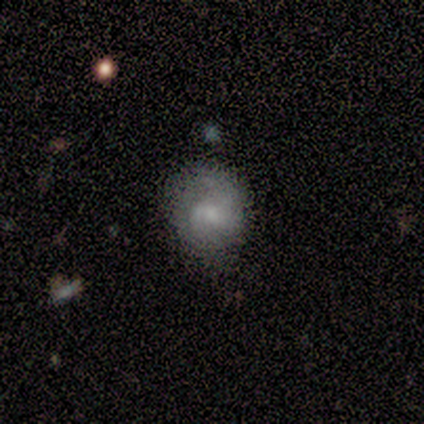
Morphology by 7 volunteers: smooth-or-featured: smooth: 57% | featured or disk: 29% | star or artifact: 14%
  how-rounded: round: 100% | in between: 0% | cigar-shaped: 0%
  merging: minor disturbance: 67% | none: 17% | major disturbance: 17% | merger: 0%